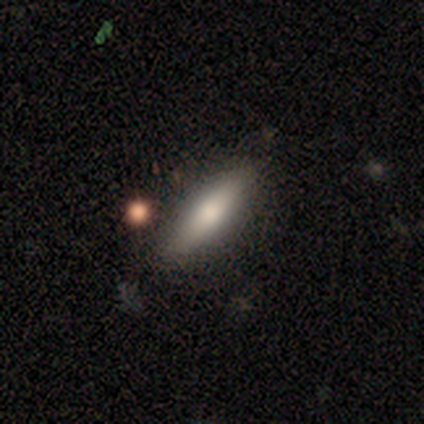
A smooth galaxy with no disk features (67%) that is cigar-shaped (75%).

Vote fractions:
- Smooth or featured? smooth: 67% / featured or disk: 33% / star or artifact: 0%
- How rounded? cigar-shaped: 75% / in between: 25% / round: 0%
- Merging? none: 100% / minor disturbance: 0% / major disturbance: 0% / merger: 0%